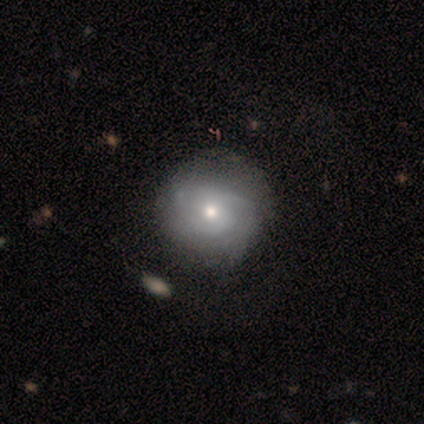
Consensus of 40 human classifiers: Smooth or featured: featured or disk — 72% (smooth — 25%)
Edge-on disk: no — 100%
Bar: no — 72% (weak — 28%)
Spiral arms: yes — 90% (no — 10%)
Spiral winding: medium — 50% (tight — 35%)
Spiral arm count: 2 — 58% (can't tell — 31%)
Bulge size: moderate — 79% (small — 17%)
Merging: none — 51% (minor disturbance — 8%)